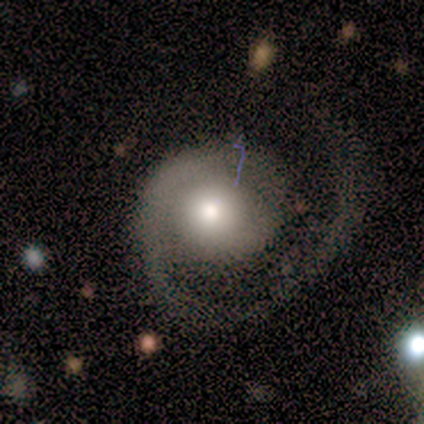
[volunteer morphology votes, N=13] smooth-or-featured: featured or disk: 69% | smooth: 23% | star or artifact: 8%
  disk-edge-on: no: 100% | yes: 0%
    bar: no: 100% | strong: 0% | weak: 0%
    has-spiral-arms: yes: 89% | no: 11%
      spiral-winding: tight: 50% | medium: 38% | loose: 12%
      spiral-arm-count: 1: 75% | 2: 25% | 3: 0% | 4: 0% | more than 4: 0% | can't tell: 0%
    bulge-size: moderate: 89% | large: 11% | dominant: 0% | small: 0% | none: 0%
  merging: major disturbance: 58% | none: 42% | minor disturbance: 0% | merger: 0%